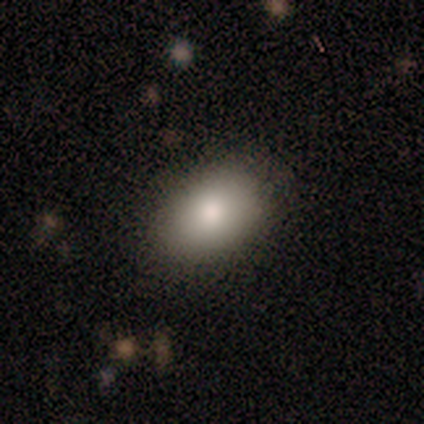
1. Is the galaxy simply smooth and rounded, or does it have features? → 50% smooth (tied), 50% featured or disk (tied), 0% star or artifact.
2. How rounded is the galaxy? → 100% in between, 0% round, 0% cigar-shaped.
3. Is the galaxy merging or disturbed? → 75% none, 25% minor disturbance, 0% major disturbance, 0% merger.